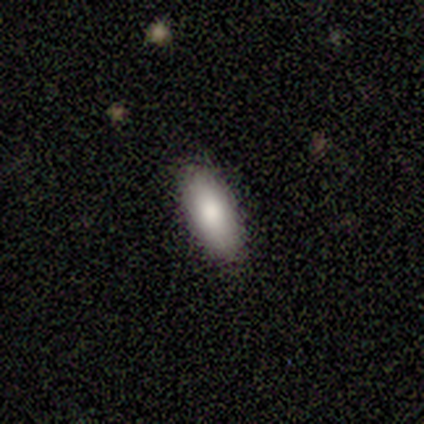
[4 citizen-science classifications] smooth 100%, featured or disk 0%, star or artifact 0%. Down the decision tree: how rounded — in between (75%); merging — none (50%, tied with minor disturbance).